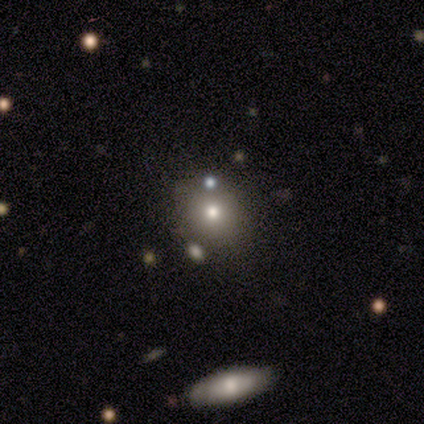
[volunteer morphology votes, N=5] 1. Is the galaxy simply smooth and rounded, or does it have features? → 40% smooth (tied), 40% star or artifact (tied), 20% featured or disk.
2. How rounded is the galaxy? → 50% round (tied), 50% in between (tied), 0% cigar-shaped.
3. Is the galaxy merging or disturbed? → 67% none, 33% major disturbance, 0% minor disturbance, 0% merger.